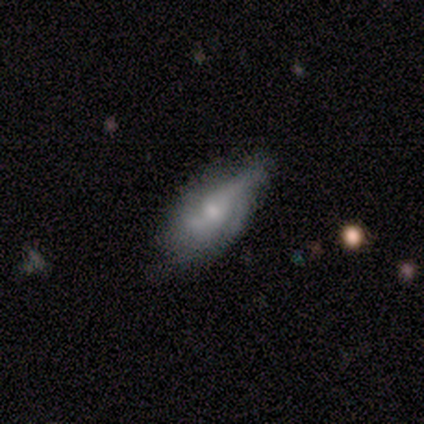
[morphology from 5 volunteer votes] Overall: featured or disk (80%). Edge-on disk: no (75%). Bar: no (67%; weak 33%). Spiral arms: yes (100%). Spiral arm count: 2 (33%, tied with 3 and 4). Spiral winding: medium (67%; tight 33%). Bulge size: moderate (67%; none 33%). Merging: none (80%).